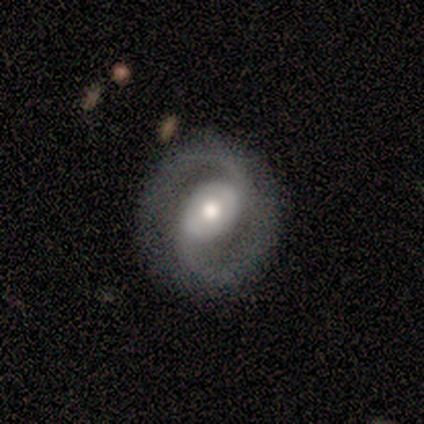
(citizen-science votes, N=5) This appears to be a featured or disk galaxy (100%) with a strong bar (40%, tied with no), 2 (100%) medium (80%) spiral arms (100%) and a moderate central bulge (60%). Merging: none (100%).